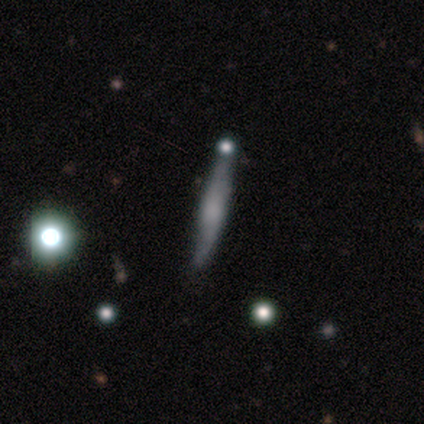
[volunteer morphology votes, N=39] Volunteers were most divided on "smooth or featured": smooth: 49%, featured or disk: 46%, star or artifact: 5%. More confident: how rounded — cigar-shaped (95%); merging — none (62%).